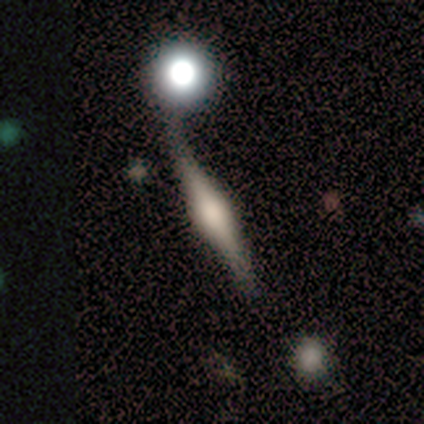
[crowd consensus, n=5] A featured or disk galaxy (100%) viewed edge-on (100%) with a rounded central bulge (100%).

Vote fractions:
- Smooth or featured? featured or disk: 100% / smooth: 0% / star or artifact: 0%
- Edge-on disk? yes: 100% / no: 0%
- Edge-on bulge? rounded: 100% / boxy: 0% / none: 0%
- Merging? none: 80% / minor disturbance: 20% / major disturbance: 0% / merger: 0%